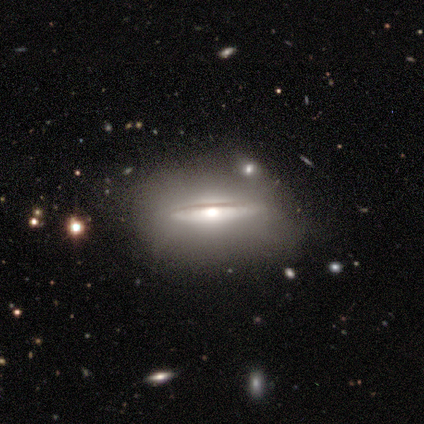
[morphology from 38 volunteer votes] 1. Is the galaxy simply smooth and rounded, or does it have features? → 63% featured or disk, 34% smooth, 3% star or artifact.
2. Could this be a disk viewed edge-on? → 88% yes, 12% no.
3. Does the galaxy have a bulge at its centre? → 90% rounded, 10% none, 0% boxy.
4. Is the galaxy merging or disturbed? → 68% none, 22% minor disturbance, 8% major disturbance, 3% merger.